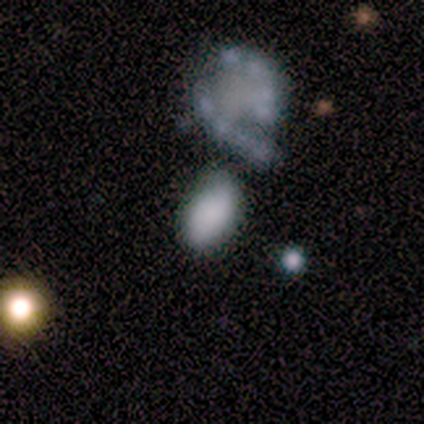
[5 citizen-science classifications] Morphology: type=smooth (80%); roundness=in between (100%); merging=none (60%).